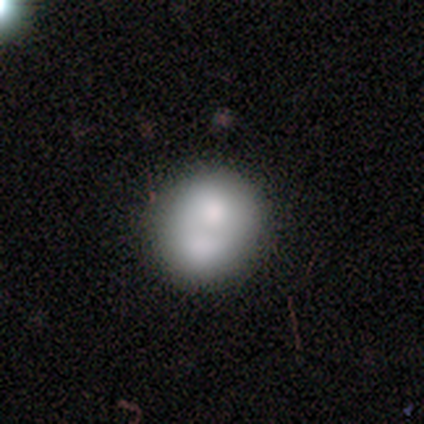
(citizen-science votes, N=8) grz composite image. It shows a smooth galaxy with no disk features (62%) that is in between round and cigar-shaped (60%). Merging: none (50%).